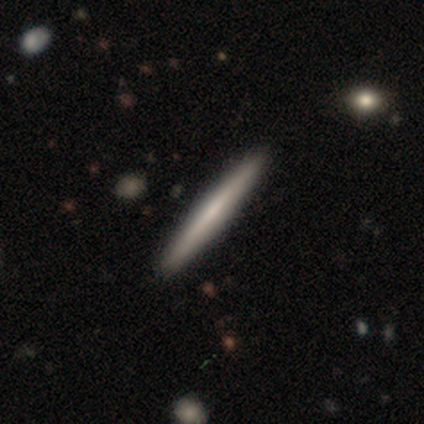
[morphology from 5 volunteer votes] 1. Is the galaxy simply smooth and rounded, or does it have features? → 80% smooth, 20% featured or disk, 0% star or artifact.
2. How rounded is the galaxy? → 100% cigar-shaped, 0% round, 0% in between.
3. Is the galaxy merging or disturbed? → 100% none, 0% minor disturbance, 0% major disturbance, 0% merger.